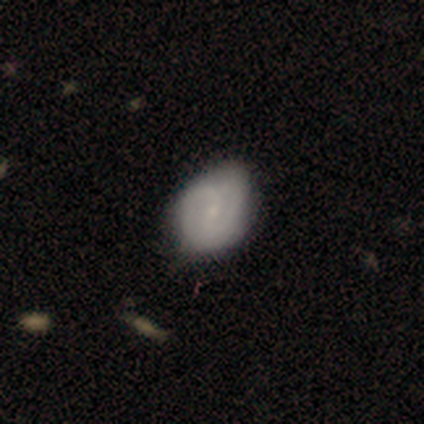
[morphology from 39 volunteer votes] featured or disk 72%, smooth 26%, star or artifact 3%. Down the decision tree: edge-on disk — no (100%); bar — weak (54%); spiral arms — yes (82%); spiral arm count — 2 (83%); spiral winding — medium (61%); bulge size — small (79%); merging — none (45%).